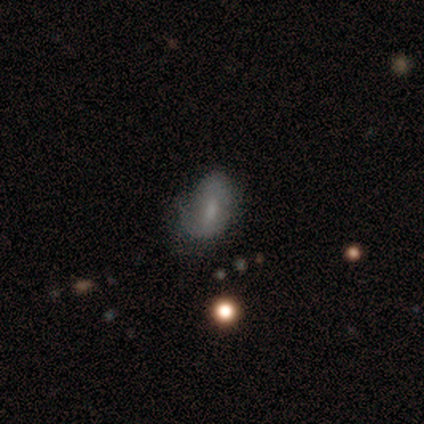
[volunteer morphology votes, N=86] smooth-or-featured: smooth: 48% | featured or disk: 41% | star or artifact: 12%
  how-rounded: in between: 88% | round: 7% | cigar-shaped: 5%
  merging: minor disturbance: 43% | none: 39% | major disturbance: 14% | merger: 3%